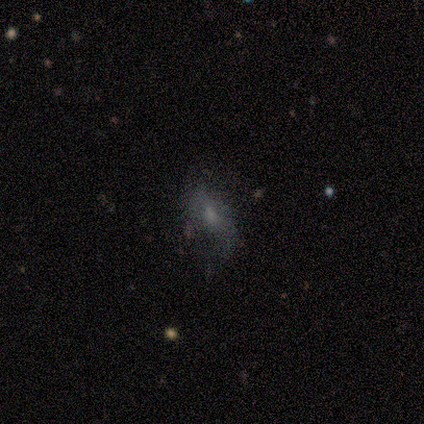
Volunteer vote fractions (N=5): Smooth or featured? smooth (60%)
How rounded? in between (100%)
Merging? none (80%)